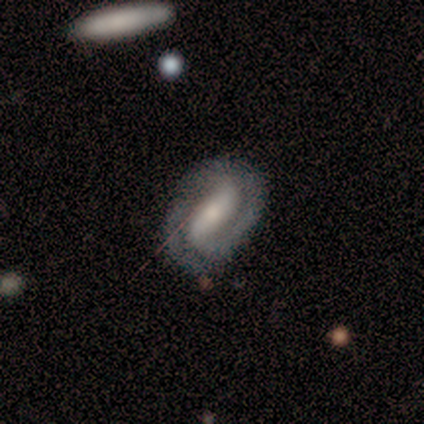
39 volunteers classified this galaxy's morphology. smooth_or_featured: featured or disk (p=0.79) [alt: smooth p=0.13]
disk_edge_on: no (p=0.87) [alt: yes p=0.13]
bar: strong (p=0.93) [alt: weak p=0.07]
has_spiral_arms: yes (p=0.96) [alt: no p=0.04]
spiral_winding: tight (p=0.73) [alt: medium p=0.19]
spiral_arm_count: 2 (p=0.88) [alt: 1 p=0.12]
bulge_size: moderate (p=0.52) [alt: small p=0.22]
merging: none (p=0.75) [alt: minor disturbance p=0.14]